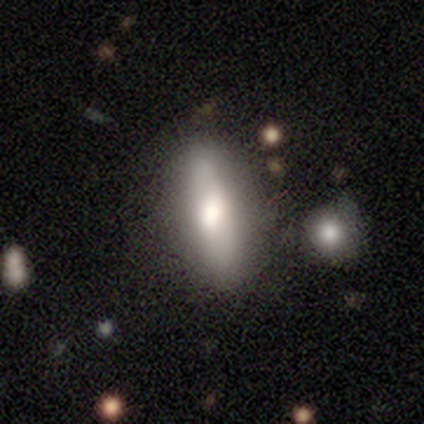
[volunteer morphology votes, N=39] type=smooth (56%); roundness=cigar-shaped (59%); merging=none (74%).